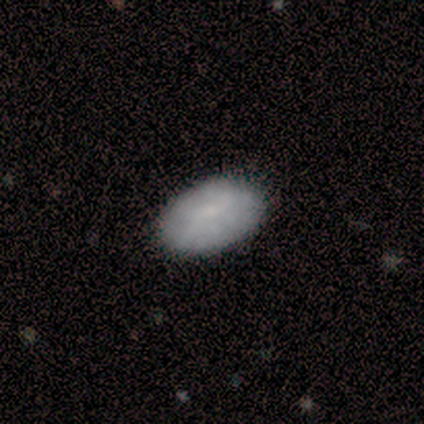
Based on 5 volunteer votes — Smooth or featured: smooth — 80% (featured or disk — 20%)
How rounded: in between — 100%
Merging: none — 100%